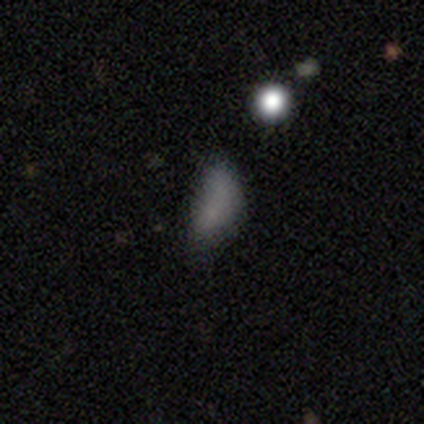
This is likely a smooth galaxy (60%). How rounded: clearly in between (100%). Merging: possibly none (50%, tied with minor disturbance).